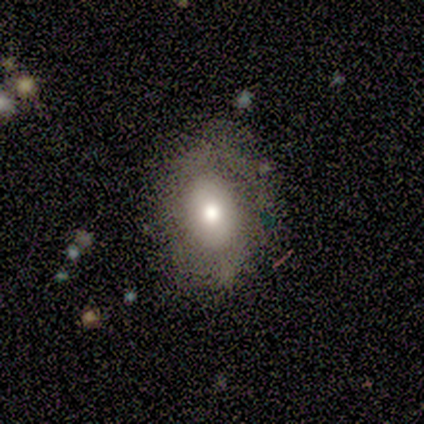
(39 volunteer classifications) A smooth galaxy with no disk features (59%) that is in between round and cigar-shaped (70%).

Vote fractions:
- Smooth or featured? smooth: 59% / featured or disk: 31% / star or artifact: 10%
- How rounded? in between: 70% / round: 30% / cigar-shaped: 0%
- Merging? none: 66% / minor disturbance: 17% / major disturbance: 14% / merger: 3%